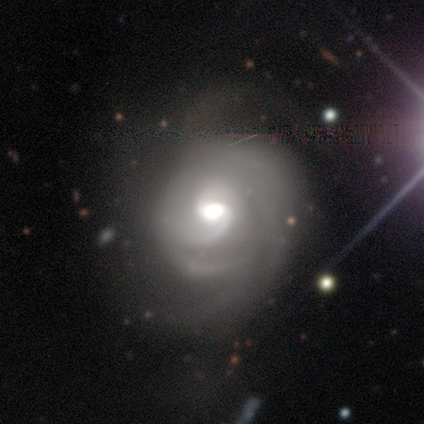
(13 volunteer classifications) Smooth or featured? featured or disk (92%)
Edge-on disk? no (100%)
Bar? no (58%)
Spiral arms? yes (100%)
Spiral winding? tight (50%)
Spiral arm count? can't tell (58%)
Bulge size? moderate (75%)
Merging? none (75%)